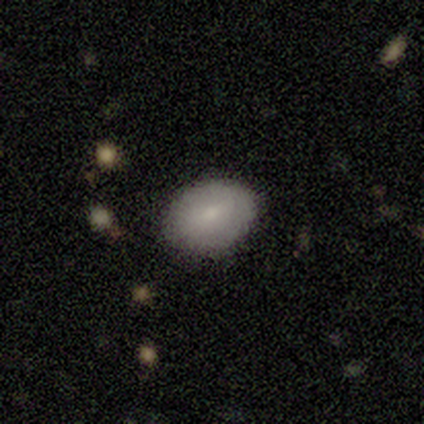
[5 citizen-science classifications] smooth-or-featured: featured or disk: 60% | smooth: 40% | star or artifact: 0%
  disk-edge-on: no: 100% | yes: 0%
    bar: no: 67% | strong: 33% | weak: 0%
    has-spiral-arms: no: 100% | yes: 0%
    bulge-size: small: 67% | moderate: 33% | dominant: 0% | large: 0% | none: 0%
  merging: none: 100% | minor disturbance: 0% | major disturbance: 0% | merger: 0%